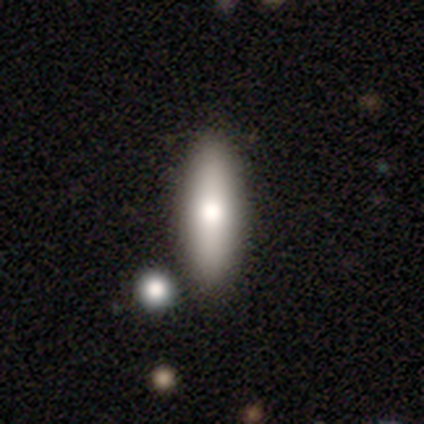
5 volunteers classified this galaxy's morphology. A smooth galaxy with no disk features (100%) that is in between round and cigar-shaped (60%). Merging: none (100%).